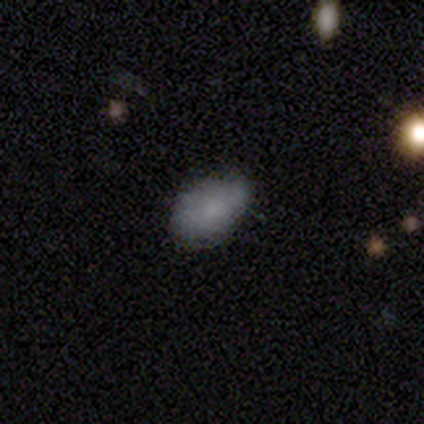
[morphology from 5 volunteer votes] smooth-or-featured: smooth: 80% | featured or disk: 20% | star or artifact: 0%
  how-rounded: in between: 100% | round: 0% | cigar-shaped: 0%
  merging: minor disturbance: 60% | none: 40% | major disturbance: 0% | merger: 0%